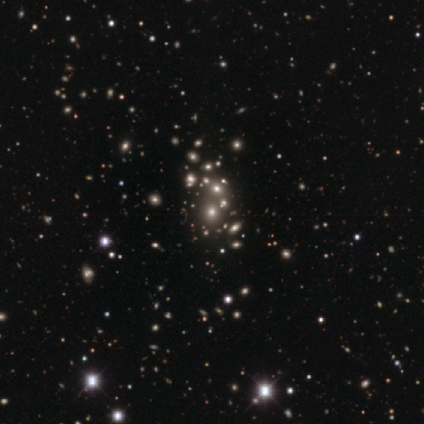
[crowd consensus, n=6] Smooth or featured: star or artifact — 67% (smooth — 17%)